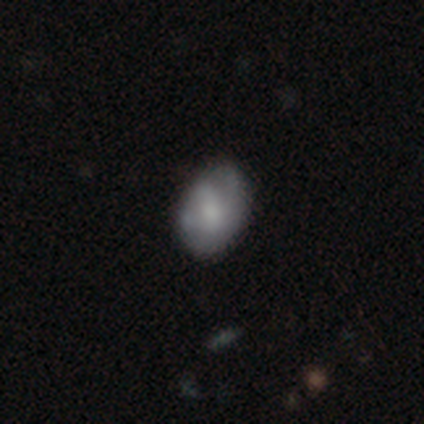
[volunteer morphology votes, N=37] Volunteers were most divided on "smooth or featured" (2-way tie): smooth: 46%, featured or disk: 46%, star or artifact: 8%. More confident: merging — none (76%); how rounded — in between (65%).